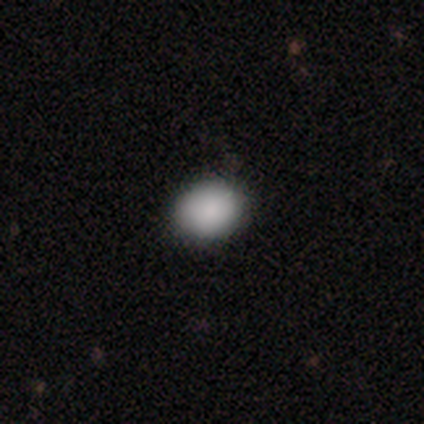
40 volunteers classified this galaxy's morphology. A smooth galaxy with no disk features (95%) that is round (58%).

Vote fractions:
- Smooth or featured? smooth: 95% / star or artifact: 5% / featured or disk: 0%
- How rounded? round: 58% / in between: 42% / cigar-shaped: 0%
- Merging? none: 74% / minor disturbance: 8% / major disturbance: 3% / merger: 0%